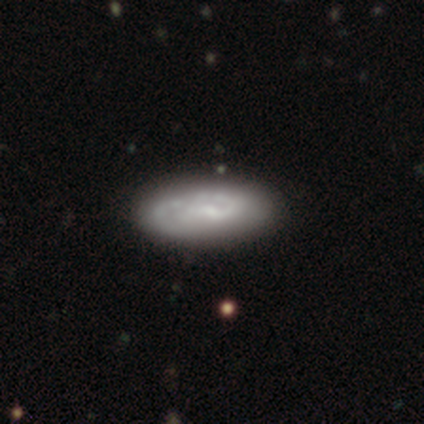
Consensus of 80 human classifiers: smooth_or_featured: featured or disk (p=0.60) [alt: smooth p=0.36]
disk_edge_on: no (p=0.83) [alt: yes p=0.17]
bar: no (p=0.50) [alt: weak p=0.42]
has_spiral_arms: yes (p=0.78) [alt: no p=0.23]
spiral_winding: tight (p=0.68) [alt: medium p=0.16]
spiral_arm_count: 2 (p=0.39) [alt: can't tell p=0.35]
bulge_size: small (p=0.68) [alt: none p=0.23]
merging: none (p=0.47) [alt: minor disturbance p=0.12]